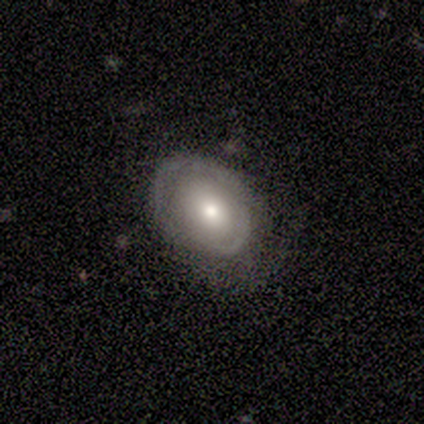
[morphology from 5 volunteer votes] Smooth or featured? smooth (80%)
How rounded? in between (50%)
Merging? none (80%)